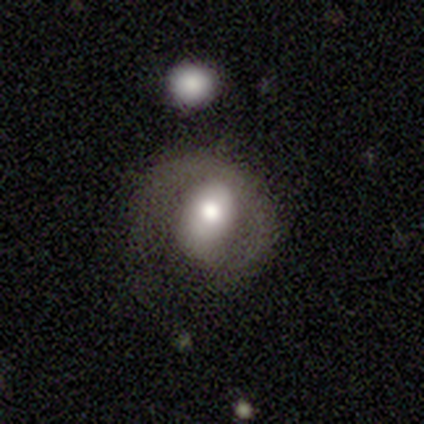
Morphology: type=featured or disk (50%); edge-on=no (95%); bar=no (72%); spiral arms=yes (72%); winding=tight (54%); arm count=1 (69%); bulge=moderate (61%); merging=none (41%).